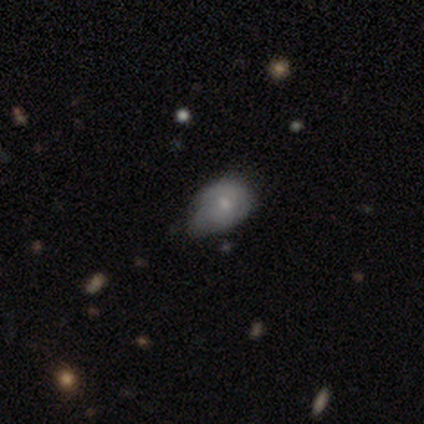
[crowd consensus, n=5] Smooth or featured? featured or disk (80%)
Edge-on disk? no (100%)
Bar? weak (50%, tied with no)
Spiral arms? yes (100%)
Spiral winding? tight (75%)
Spiral arm count? 2 (75%)
Bulge size? small (75%)
Merging? minor disturbance (100%)